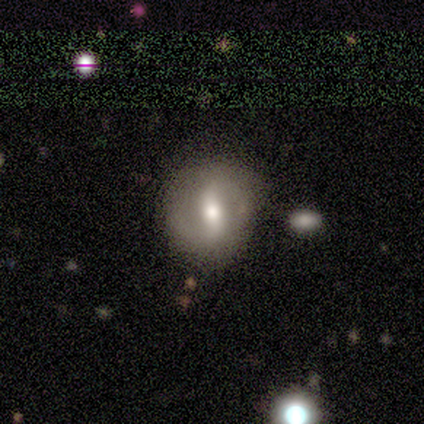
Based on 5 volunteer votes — Overall: smooth (60%; featured or disk 20%). How rounded: in between (67%; round 33%). Merging: none (50%, tied with minor disturbance).